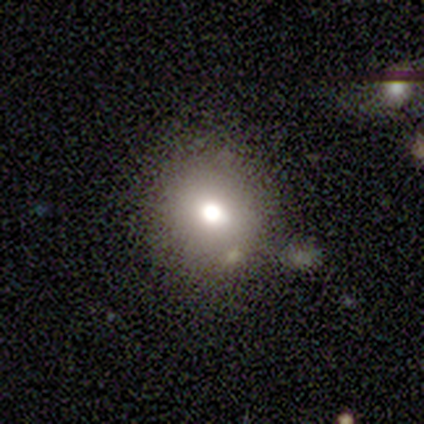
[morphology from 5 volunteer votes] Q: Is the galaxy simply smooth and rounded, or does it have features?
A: smooth — 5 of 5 (100%).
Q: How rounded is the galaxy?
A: round — 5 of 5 (100%).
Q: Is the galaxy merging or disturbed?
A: none — 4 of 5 (80%).